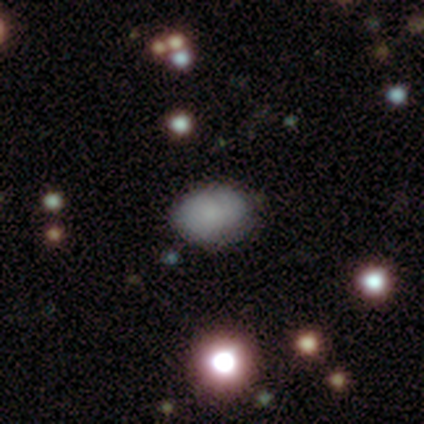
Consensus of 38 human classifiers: Overall: smooth (68%). How rounded: in between (81%). Merging: none (77%).